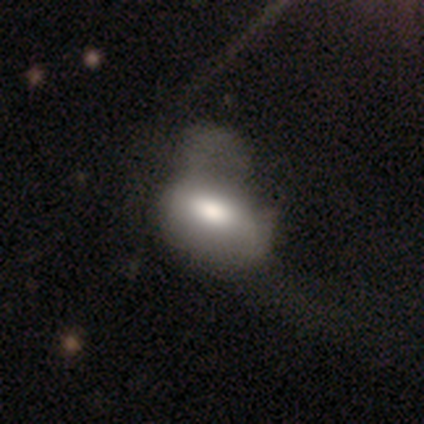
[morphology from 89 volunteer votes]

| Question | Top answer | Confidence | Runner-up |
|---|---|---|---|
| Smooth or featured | smooth | 67% | featured or disk (25%) |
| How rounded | in between | 88% | round (8%) |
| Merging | major disturbance | 48% | minor disturbance (24%) |